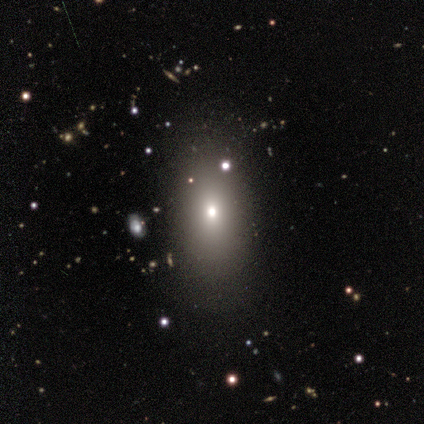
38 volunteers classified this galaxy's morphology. smooth 74%, featured or disk 13%, star or artifact 13%. Down the decision tree: how rounded — in between (61%); merging — none (85%).